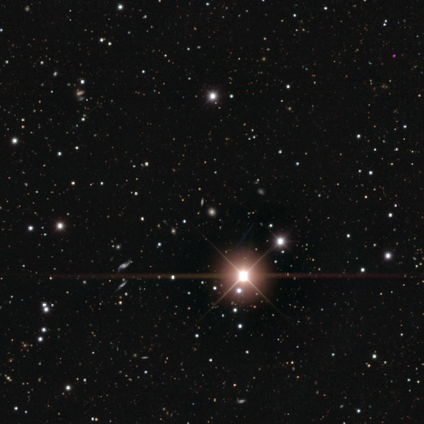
Q: Smooth or featured?
A: star or artifact (67%); runner-up: smooth (33%)